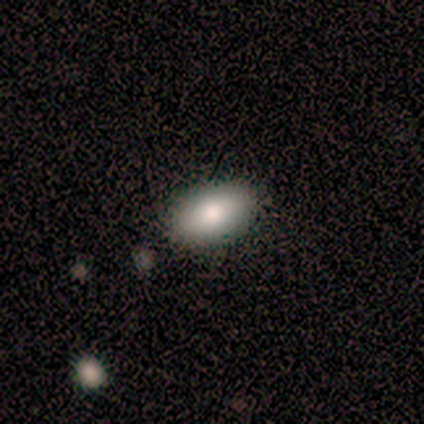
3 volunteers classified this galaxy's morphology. smooth-or-featured: smooth: 100% | featured or disk: 0% | star or artifact: 0%
  how-rounded: in between: 100% | round: 0% | cigar-shaped: 0%
  merging: none: 67% | minor disturbance: 33% | major disturbance: 0% | merger: 0%